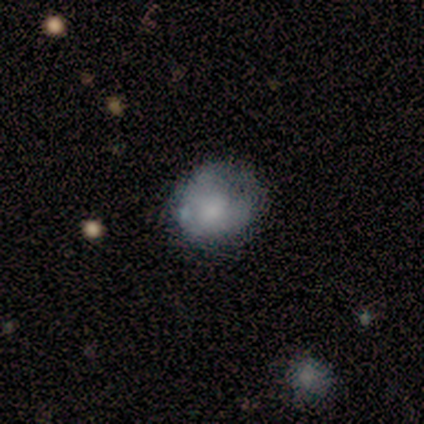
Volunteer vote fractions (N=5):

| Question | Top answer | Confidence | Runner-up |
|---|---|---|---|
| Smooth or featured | smooth | 60% | featured or disk (20%) |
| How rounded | in between | 67% | round (33%) |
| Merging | none | 50% | minor disturbance (25%) |